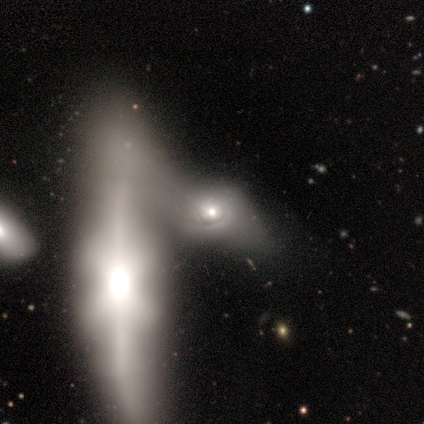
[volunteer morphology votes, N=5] This appears to be a featured or disk galaxy (80%) with no bar (100%), no spiral arms (67%) and a moderate central bulge (100%). Merging: merger (100%).